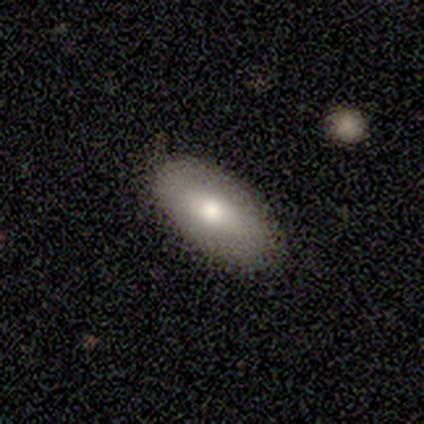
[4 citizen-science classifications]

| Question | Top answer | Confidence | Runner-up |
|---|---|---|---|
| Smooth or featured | smooth | 50% | featured or disk (25%) |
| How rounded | in between | 100% | — |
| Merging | none | 100% | — |